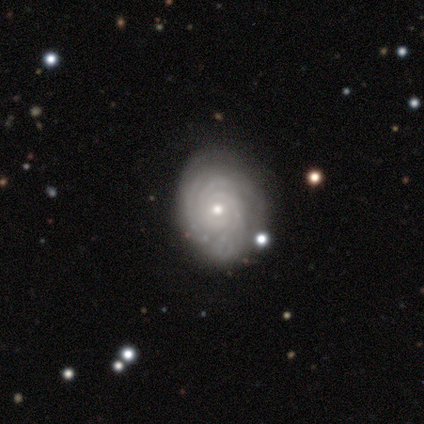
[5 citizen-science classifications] featured or disk 100%, smooth 0%, star or artifact 0%. Down the decision tree: edge-on disk — no (80%); bar — no (100%); spiral arms — yes (100%); spiral arm count — 3 (50%); spiral winding — tight (100%); bulge size — small (100%); merging — none (80%).